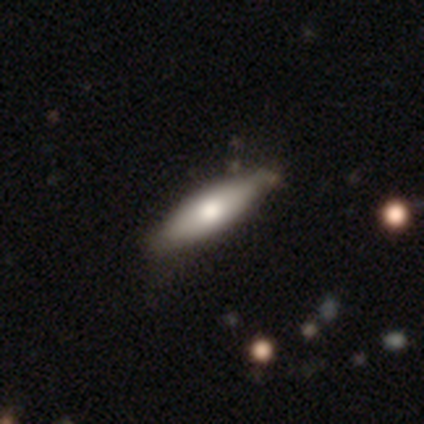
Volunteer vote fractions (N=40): This is likely a smooth galaxy (72%). How rounded: possibly cigar-shaped (52%). Merging: possibly none (59%).